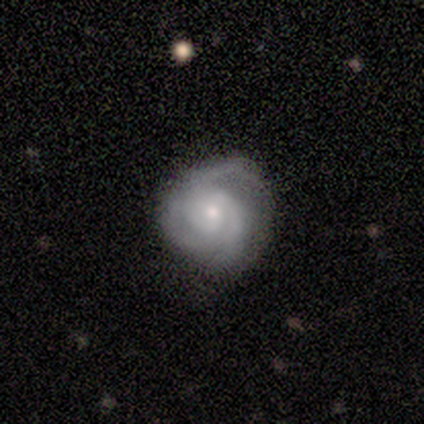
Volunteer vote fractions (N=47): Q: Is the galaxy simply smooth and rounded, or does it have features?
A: featured or disk — 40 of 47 (85%).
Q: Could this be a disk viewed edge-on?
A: no — 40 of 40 (100%).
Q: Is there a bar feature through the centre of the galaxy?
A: no — 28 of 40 (70%).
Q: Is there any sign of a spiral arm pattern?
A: yes — 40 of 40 (100%).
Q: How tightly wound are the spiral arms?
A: tight — 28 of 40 (70%).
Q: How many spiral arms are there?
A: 3 — 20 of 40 (50%).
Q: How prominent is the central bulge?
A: moderate — 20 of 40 (50%).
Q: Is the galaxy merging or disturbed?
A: none — 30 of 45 (67%).